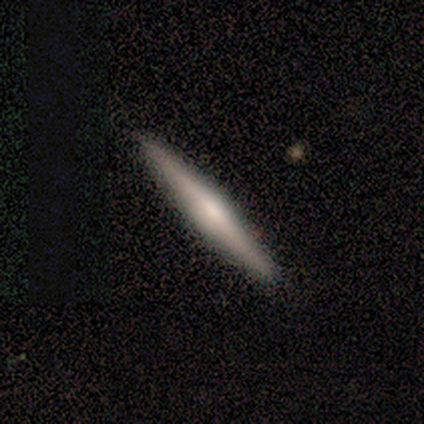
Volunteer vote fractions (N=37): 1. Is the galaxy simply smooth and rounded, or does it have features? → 59% featured or disk, 41% smooth, 0% star or artifact.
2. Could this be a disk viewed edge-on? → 86% yes, 14% no.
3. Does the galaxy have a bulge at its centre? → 74% rounded, 21% none, 5% boxy.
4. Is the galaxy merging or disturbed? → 92% none, 5% minor disturbance, 3% major disturbance, 0% merger.